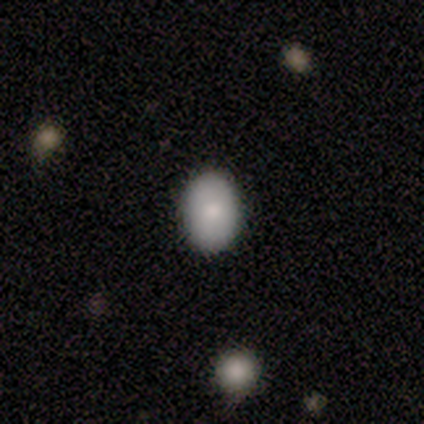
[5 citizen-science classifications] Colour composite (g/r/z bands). It shows a smooth galaxy with no disk features (60%) that is in between round and cigar-shaped (100%). Merging: none (100%).